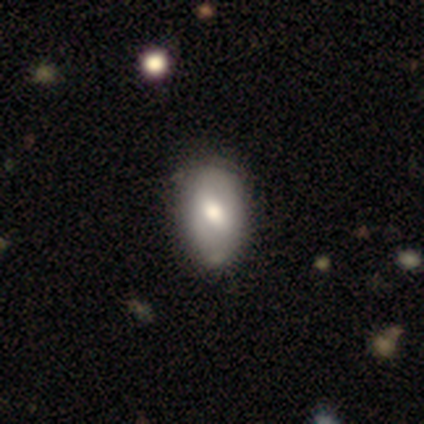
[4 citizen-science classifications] Smooth or featured? 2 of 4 (50%, tied with star or artifact) said smooth. How rounded? 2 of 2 (100%) said in between. Merging? 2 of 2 (100%) said minor disturbance.